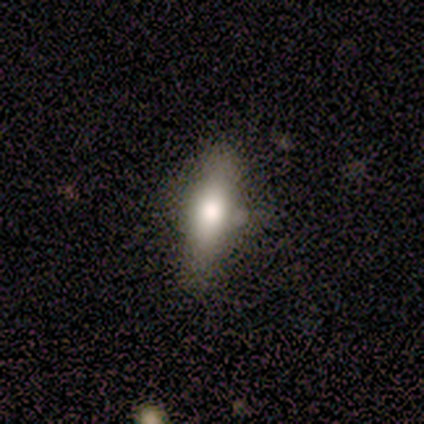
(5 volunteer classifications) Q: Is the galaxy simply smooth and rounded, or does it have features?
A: smooth — 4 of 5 (80%).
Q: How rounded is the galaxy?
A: in between — 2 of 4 (50%, tied with cigar-shaped).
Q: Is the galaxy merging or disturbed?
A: none — 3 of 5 (60%).